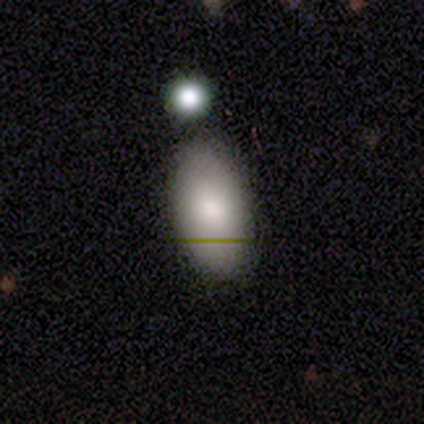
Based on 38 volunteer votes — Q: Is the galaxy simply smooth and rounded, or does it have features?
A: smooth — 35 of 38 (92%).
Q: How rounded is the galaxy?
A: in between — 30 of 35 (86%).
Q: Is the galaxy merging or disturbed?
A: none — 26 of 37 (70%).